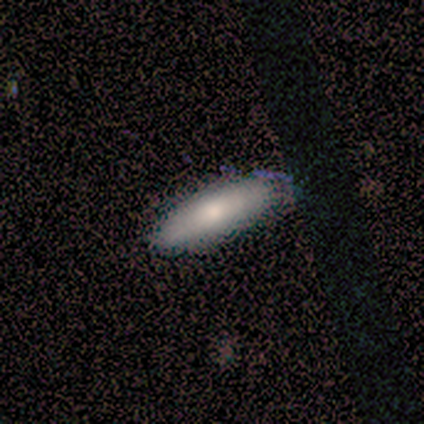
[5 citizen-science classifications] Smooth or featured: smooth — 100%
How rounded: in between — 60% (cigar-shaped — 40%)
Merging: none — 80% (minor disturbance — 20%)